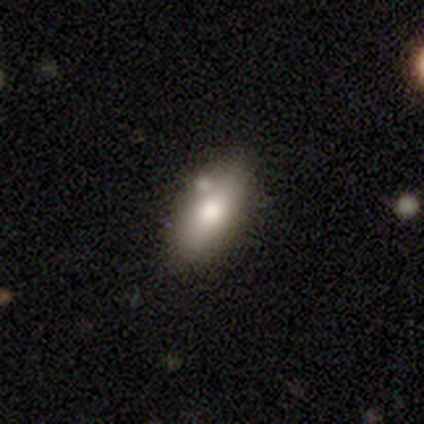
Q: Smooth or featured?
A: smooth (72%); runner-up: featured or disk (22%)
Q: How rounded?
A: in between (81%); runner-up: cigar-shaped (15%)
Q: Merging?
A: none (76%); runner-up: minor disturbance (9%)